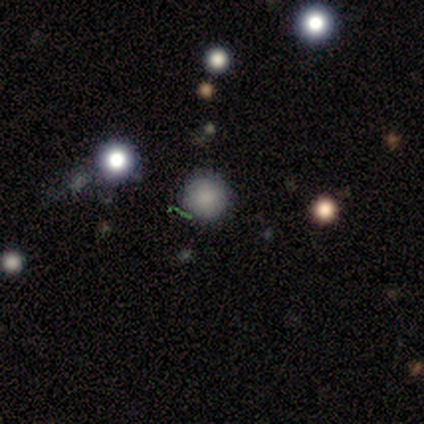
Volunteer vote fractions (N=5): smooth-or-featured: smooth: 100% | featured or disk: 0% | star or artifact: 0%
  how-rounded: round: 80% | in between: 20% | cigar-shaped: 0%
  merging: none: 100% | minor disturbance: 0% | major disturbance: 0% | merger: 0%